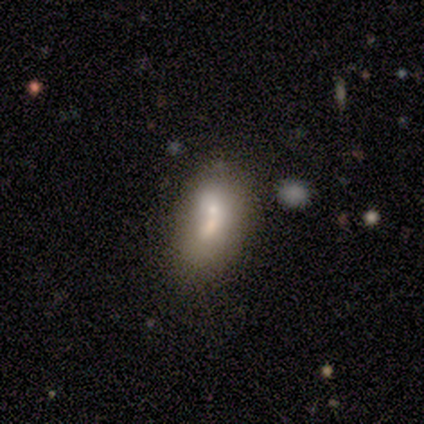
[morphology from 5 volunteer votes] This appears to be a featured or disk galaxy (60%) with no bar (100%), no spiral arms (100%) and a small central bulge (67%). Merging: merger (60%).